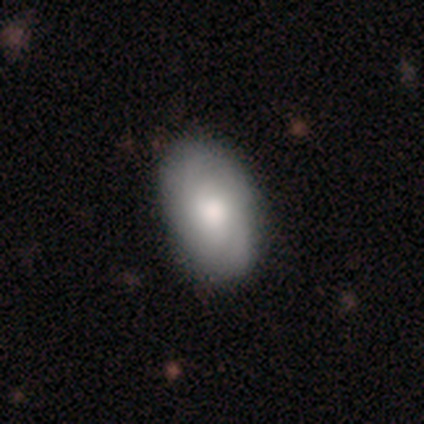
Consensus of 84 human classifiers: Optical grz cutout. It shows a smooth galaxy with no disk features (68%) that is in between round and cigar-shaped (93%). Merging: none (88%).